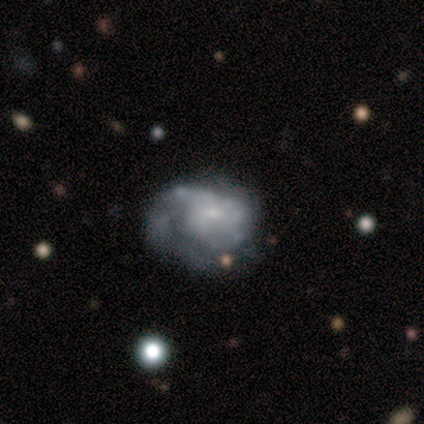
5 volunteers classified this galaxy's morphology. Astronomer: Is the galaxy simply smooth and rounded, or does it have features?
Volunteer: smooth — 40%, tied with featured or disk at 40%.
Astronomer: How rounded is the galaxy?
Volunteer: round — 50%, tied with in between at 50%.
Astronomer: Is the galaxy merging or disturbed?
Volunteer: none — 50%, tied with minor disturbance at 50%.